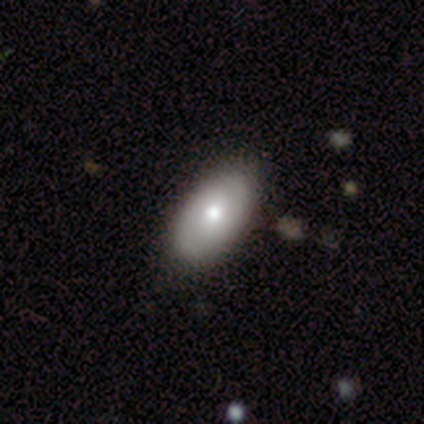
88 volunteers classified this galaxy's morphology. smooth_or_featured: smooth (p=0.65) [alt: featured or disk p=0.26]
how_rounded: in between (p=0.95) [alt: round p=0.04]
merging: none (p=0.78) [alt: minor disturbance p=0.21]